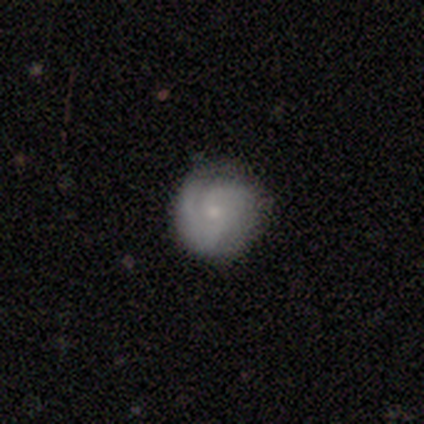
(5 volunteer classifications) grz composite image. It shows a featured or disk galaxy (60%) with no bar (100%), 2 (33%, tied with 3 and can't tell) medium (67%) spiral arms (100%) and a small central bulge (67%). Merging: none (100%).